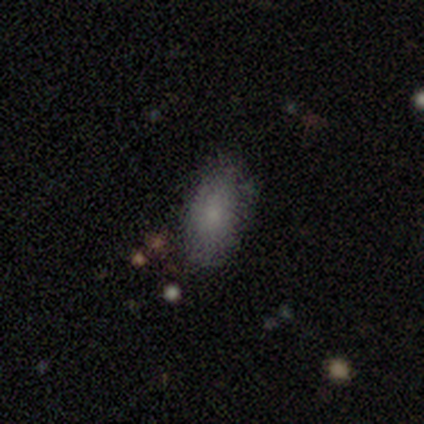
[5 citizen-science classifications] Smooth or featured? smooth (80%)
How rounded? in between (100%)
Merging? none (80%)